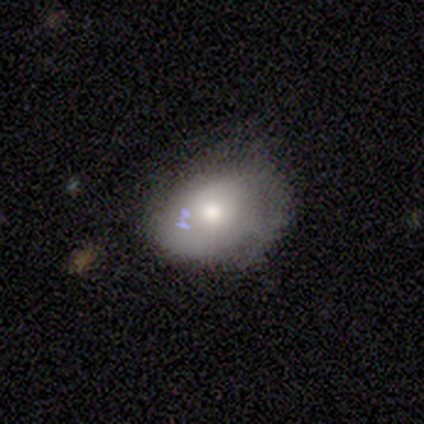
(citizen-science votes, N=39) Overall: smooth (54%; featured or disk 31%). How rounded: in between (71%). Merging: none (58%; minor disturbance 30%).